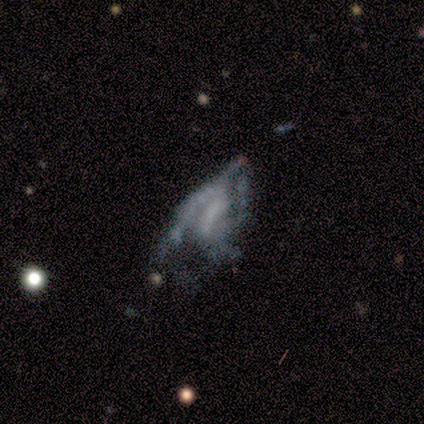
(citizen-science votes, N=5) Smooth or featured: featured or disk — 60% (smooth — 40%)
Edge-on disk: no — 100%
Bar: weak — 67% (no — 33%)
Spiral arms: yes — 67% (no — 33%)
Spiral winding: loose — 100%
Spiral arm count: 1 — 50% (tied with can't tell — 50%)
Bulge size: none — 67% (small — 33%)
Merging: major disturbance — 80% (merger — 20%)